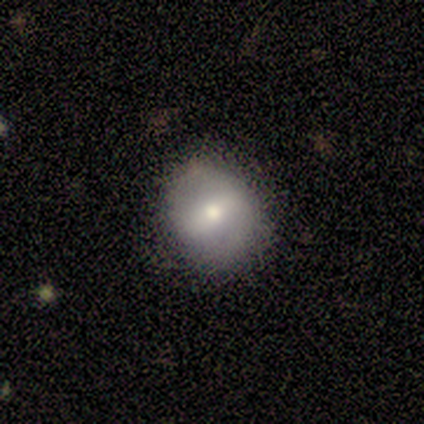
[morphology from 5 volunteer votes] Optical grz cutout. It shows a featured or disk galaxy (60%) with a strong bar (100%), 2 (100%) medium (50%, tied with loose) spiral arms (67%) and a moderate central bulge (100%). Merging: none (100%).